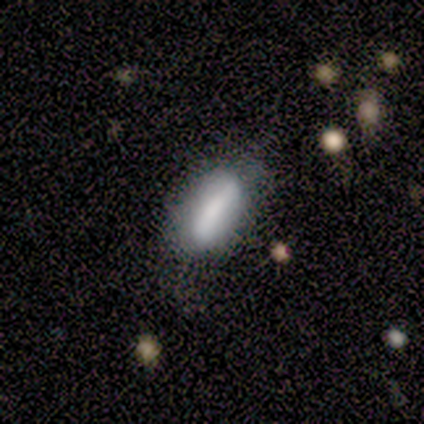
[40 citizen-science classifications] Volunteers were most divided on "merging": none: 56%, minor disturbance: 31%, merger: 8%, major disturbance: 5%. More confident: how rounded — in between (76%); smooth or featured — smooth (72%).